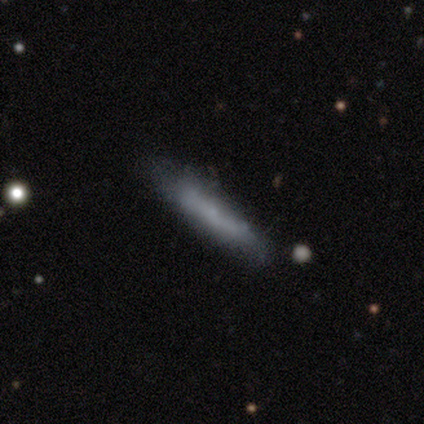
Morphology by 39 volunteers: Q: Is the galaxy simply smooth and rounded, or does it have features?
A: smooth — 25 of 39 (64%).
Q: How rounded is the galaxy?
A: cigar-shaped — 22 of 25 (88%).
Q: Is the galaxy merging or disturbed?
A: none — 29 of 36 (81%).